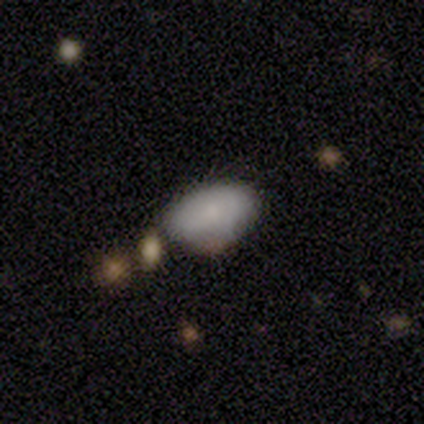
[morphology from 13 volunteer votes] Volunteers were most divided on "merging": none: 46%, minor disturbance: 38%, major disturbance: 8%, merger: 8%. More confident: how rounded — in between (80%); smooth or featured — smooth (77%).